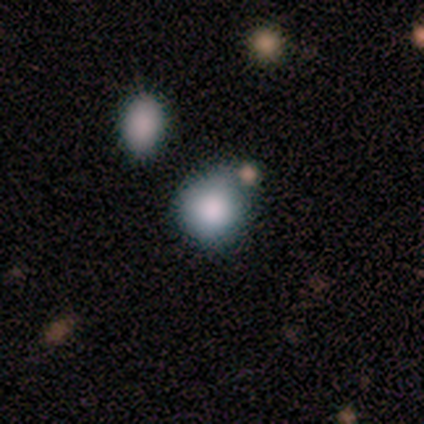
Morphology: type=smooth (100%); roundness=round (100%); merging=none (60%).